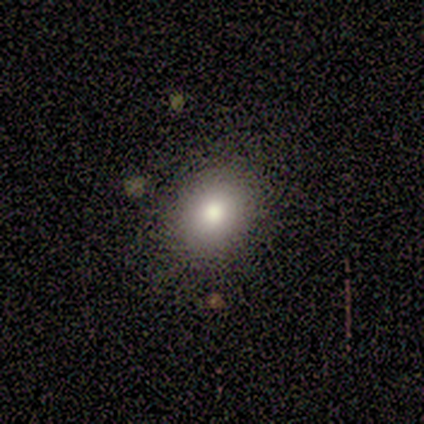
Smooth or featured: smooth — 100%
How rounded: round — 60% (in between — 40%)
Merging: none — 80% (minor disturbance — 20%)